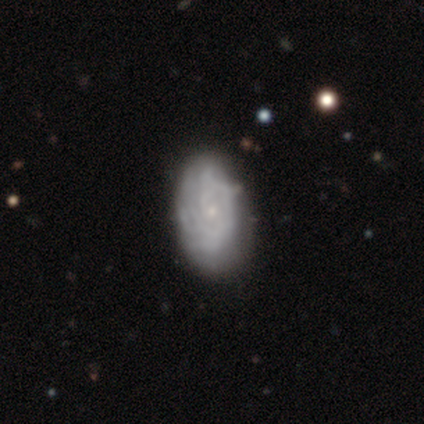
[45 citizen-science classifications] Smooth or featured? featured or disk (89%)
Edge-on disk? no (98%)
Bar? no (79%)
Spiral arms? yes (90%)
Spiral winding? tight (60%)
Spiral arm count? 2 (37%, tied with can't tell)
Bulge size? small (90%)
Merging? none (52%)